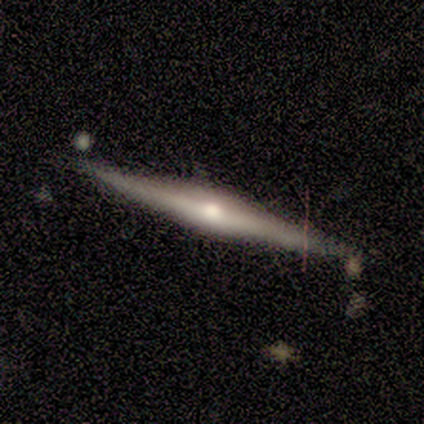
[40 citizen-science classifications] smooth_or_featured: featured or disk (p=0.82) [alt: smooth p=0.15]
disk_edge_on: yes (p=1.00)
edge_on_bulge: rounded (p=0.85) [alt: boxy p=0.15]
merging: none (p=0.79) [alt: minor disturbance p=0.15]